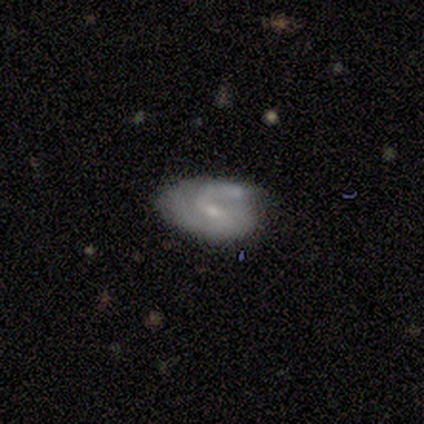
Volunteers were most divided on "merging": none: 40%, minor disturbance: 20%, major disturbance: 20%, merger: 20%. More confident: edge-on disk — no (100%); bulge size — small (100%); smooth or featured — featured or disk (80%); bar — no (75%); spiral arms — yes (75%); spiral winding — loose (67%); spiral arm count — 2 (67%).